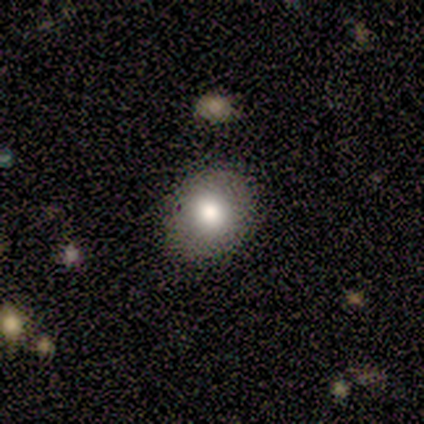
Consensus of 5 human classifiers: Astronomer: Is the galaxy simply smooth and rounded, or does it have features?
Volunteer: smooth — 100%.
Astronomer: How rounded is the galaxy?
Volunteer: round — 100%.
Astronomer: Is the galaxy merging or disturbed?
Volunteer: none — 80%.